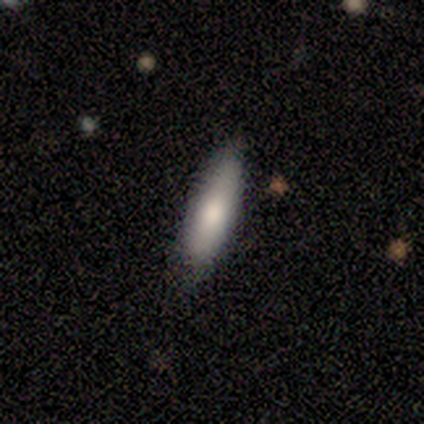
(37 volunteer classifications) Smooth or featured: smooth — 78% (featured or disk — 14%)
How rounded: in between — 55% (cigar-shaped — 45%)
Merging: none — 76% (minor disturbance — 18%)